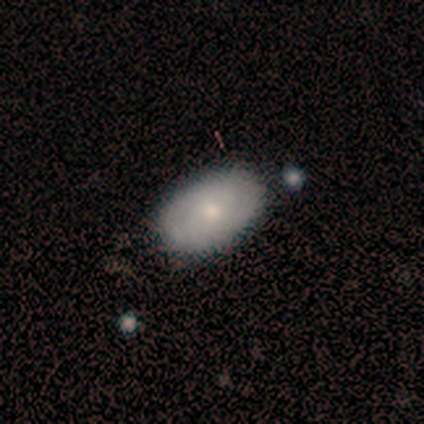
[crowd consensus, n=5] A smooth galaxy with no disk features (60%) that is in between round and cigar-shaped (100%). Merging: none (100%).